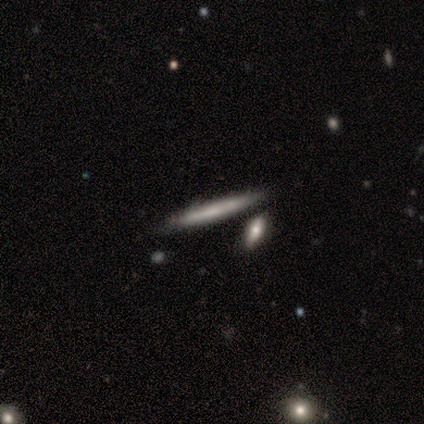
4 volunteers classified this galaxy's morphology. Smooth or featured: smooth — 75% (featured or disk — 25%)
How rounded: cigar-shaped — 100%
Merging: none — 75% (merger — 25%)